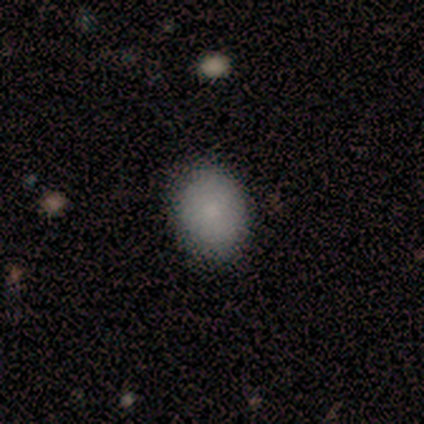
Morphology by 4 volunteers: Smooth or featured? 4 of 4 (100%) said smooth. How rounded? 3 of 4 (75%) said in between. Merging? 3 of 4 (75%) said none.